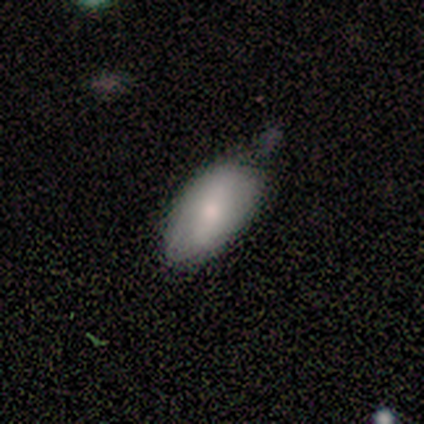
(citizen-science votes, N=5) A smooth galaxy with no disk features (60%) that is in between round and cigar-shaped (100%). Merging: minor disturbance (67%).